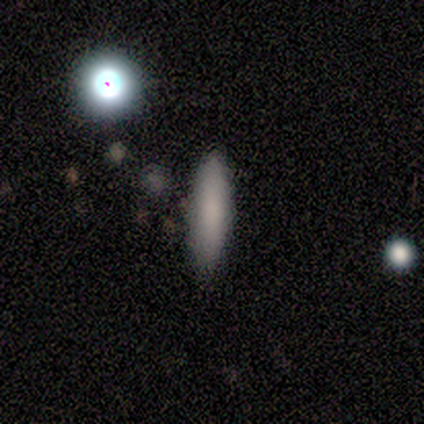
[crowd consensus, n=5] This appears to be a smooth galaxy with no disk features (80%) that is cigar-shaped (75%). Merging: none (75%).